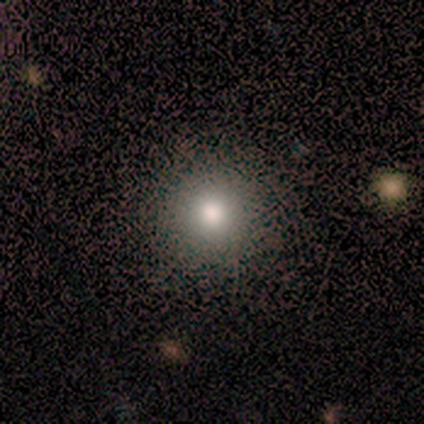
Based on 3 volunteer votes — Morphology: type=smooth (33%, tied with featured or disk and star or artifact); roundness=round (100%); merging=none (100%).